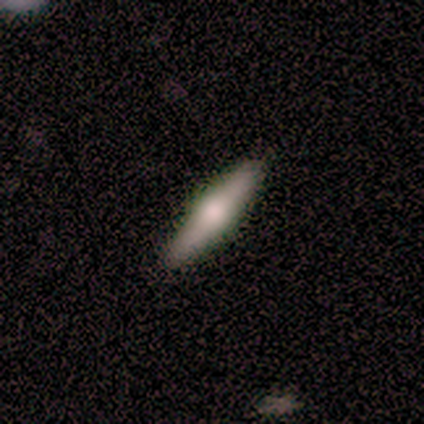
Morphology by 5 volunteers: smooth 60%, featured or disk 20%, star or artifact 20%. Down the decision tree: how rounded — cigar-shaped (100%); merging — none (100%).